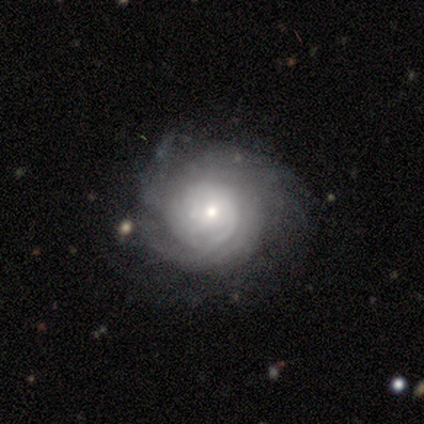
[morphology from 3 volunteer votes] Smooth or featured? featured or disk (100%)
Edge-on disk? no (100%)
Bar? no (67%)
Spiral arms? yes (100%)
Spiral winding? tight (100%)
Spiral arm count? can't tell (67%)
Bulge size? dominant (33%, tied with moderate and small)
Merging? none (67%)